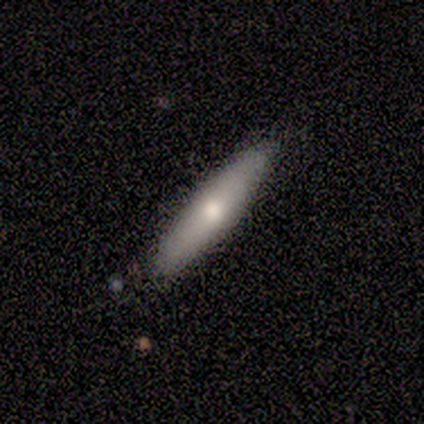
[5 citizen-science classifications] Q: Smooth or featured?
A: featured or disk (60%); runner-up: smooth (40%)
Q: Edge-on disk?
A: yes (100%)
Q: Edge-on bulge?
A: rounded (100%)
Q: Merging?
A: none (80%); runner-up: minor disturbance (20%)